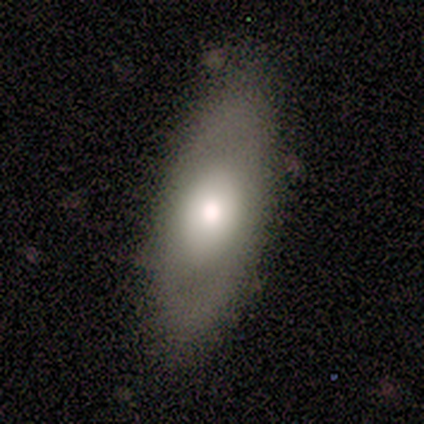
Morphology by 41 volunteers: A smooth galaxy with no disk features (49%) that is in between round and cigar-shaped (85%).

Vote fractions:
- Smooth or featured? smooth: 49% / featured or disk: 41% / star or artifact: 10%
- How rounded? in between: 85% / cigar-shaped: 15% / round: 0%
- Merging? none: 73% / minor disturbance: 19% / major disturbance: 8% / merger: 0%